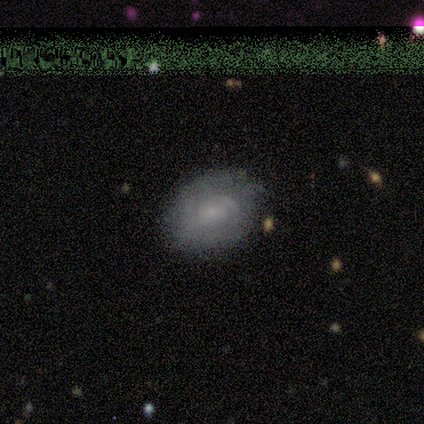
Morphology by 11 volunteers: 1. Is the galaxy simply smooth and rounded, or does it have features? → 82% smooth, 18% featured or disk, 0% star or artifact.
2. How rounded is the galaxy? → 89% in between, 11% round, 0% cigar-shaped.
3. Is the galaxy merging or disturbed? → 91% none, 9% merger, 0% minor disturbance, 0% major disturbance.